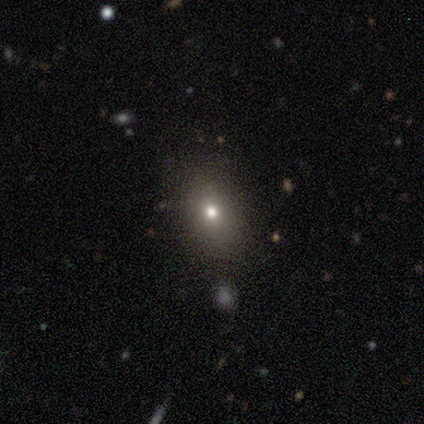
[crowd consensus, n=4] A smooth galaxy with no disk features (75%) that is in between round and cigar-shaped (67%). Merging: none (67%).